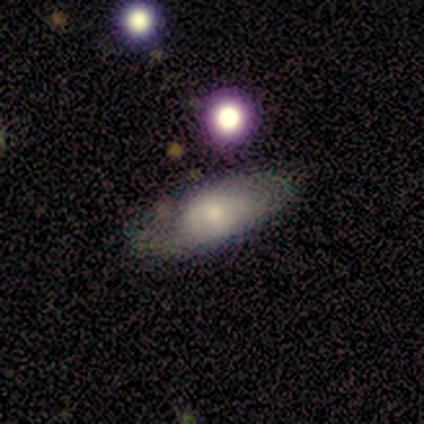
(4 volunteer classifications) A smooth galaxy with no disk features (50%) that is in between round and cigar-shaped (100%). Merging: none (67%).